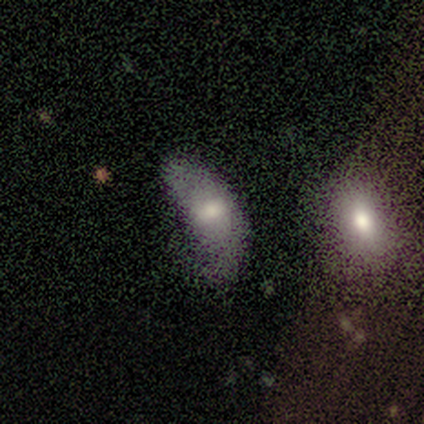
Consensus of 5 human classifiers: Smooth or featured: smooth — 60% (featured or disk — 20%)
How rounded: in between — 100%
Merging: major disturbance — 50% (none — 25%)